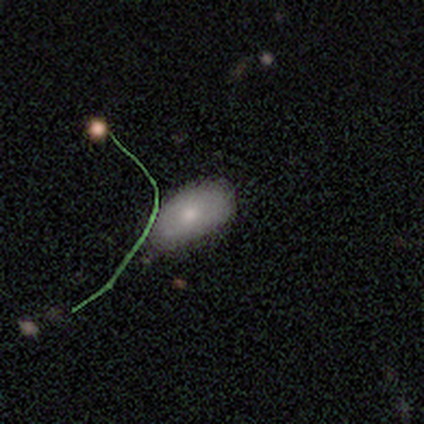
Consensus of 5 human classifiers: Smooth or featured?
  - smooth: 60% *
  - featured or disk: 20%
  - star or artifact: 20%
How rounded?
  - in between: 100% *
  - round: 0%
  - cigar-shaped: 0%
Merging?
  - none: 50% * (tied)
  - minor disturbance: 50% * (tied)
  - major disturbance: 0%
  - merger: 0%